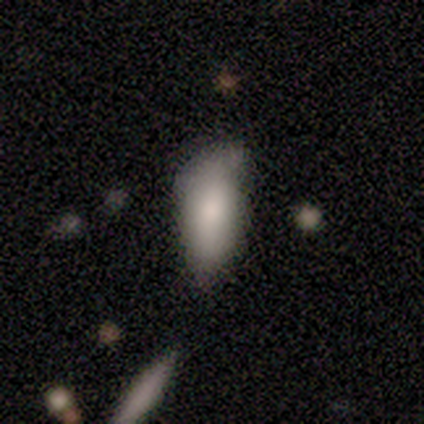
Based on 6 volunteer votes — Overall: smooth (83%). How rounded: in between (80%). Merging: none (67%; minor disturbance 33%).